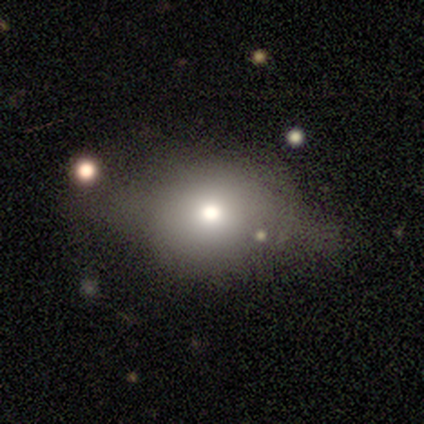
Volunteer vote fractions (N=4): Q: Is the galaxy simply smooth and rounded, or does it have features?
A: smooth — 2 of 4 (50%, tied with featured or disk).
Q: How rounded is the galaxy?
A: round — 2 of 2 (100%).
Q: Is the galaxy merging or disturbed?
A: none — 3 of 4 (75%).